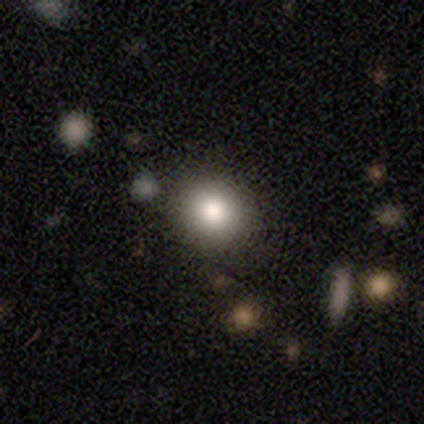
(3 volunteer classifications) Smooth or featured? smooth (33%, tied with featured or disk and star or artifact)
How rounded? round (100%)
Merging? none (100%)